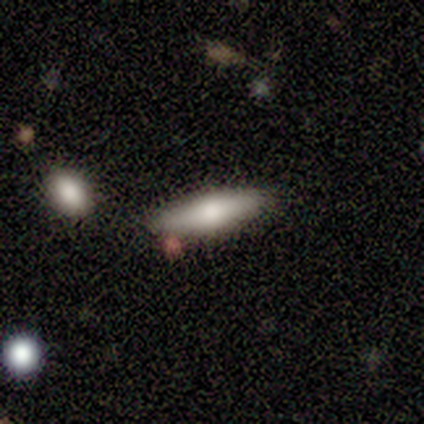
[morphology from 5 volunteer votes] Smooth or featured? 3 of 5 (60%) said smooth. How rounded? 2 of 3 (67%) said cigar-shaped. Merging? 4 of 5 (80%) said none.